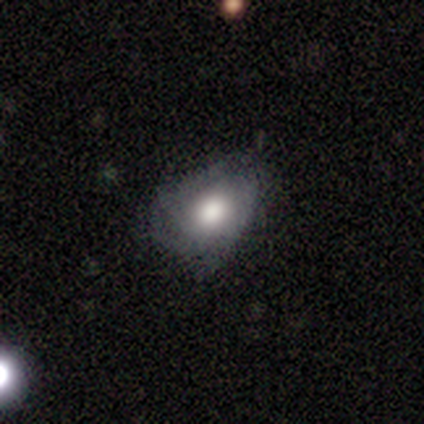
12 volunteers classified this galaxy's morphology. Overall: featured or disk (75%). Edge-on disk: no (100%). Bar: no (89%). Spiral arms: no (56%; yes 44%). Bulge size: moderate (67%). Merging: minor disturbance (50%; none 42%).